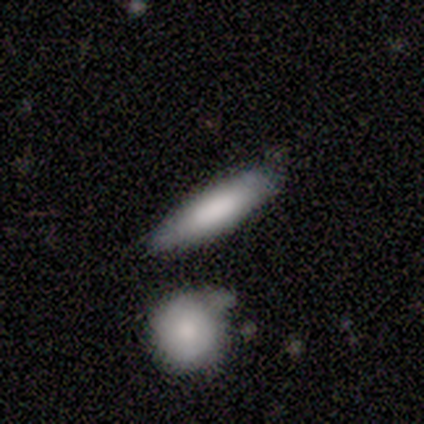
Q: Smooth or featured?
A: smooth (50%); tied with: featured or disk (50%)
Q: How rounded?
A: cigar-shaped (100%)
Q: Merging?
A: none (75%); runner-up: major disturbance (25%)